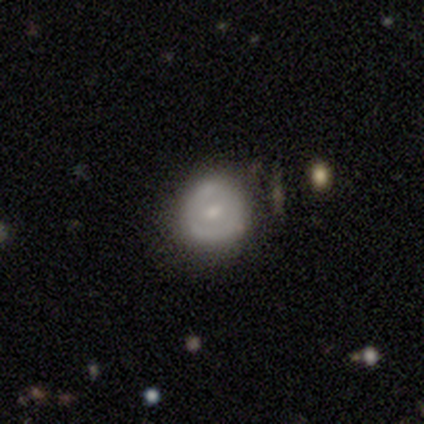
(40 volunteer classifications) This is possibly a featured or disk galaxy (55%). It is clearly not viewed edge-on (100%). Bar: possibly no (55%). Spiral arm pattern: likely no (73%). Central bulge: likely moderate (64%). Merging: likely none (63%).